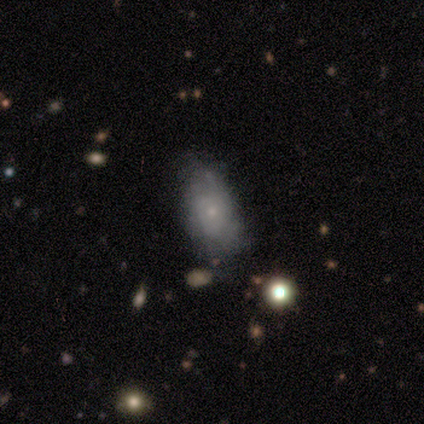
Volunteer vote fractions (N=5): A featured or disk galaxy (60%) with no bar (100%), no spiral arms (67%) and a small central bulge (100%).

Vote fractions:
- Smooth or featured? featured or disk: 60% / smooth: 40% / star or artifact: 0%
- Edge-on disk? no: 100% / yes: 0%
- Bar? no: 100% / strong: 0% / weak: 0%
- Spiral arms? no: 67% / yes: 33%
- Bulge size? small: 100% / dominant: 0% / large: 0% / moderate: 0% / none: 0%
- Merging? none: 40% (tied) / minor disturbance: 40% (tied) / major disturbance: 20% / merger: 0%